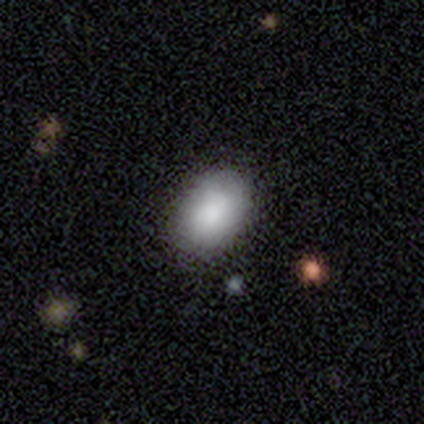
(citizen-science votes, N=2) Q: Smooth or featured?
A: smooth (100%)
Q: How rounded?
A: round (50%); tied with: in between (50%)
Q: Merging?
A: none (50%); tied with: minor disturbance (50%)